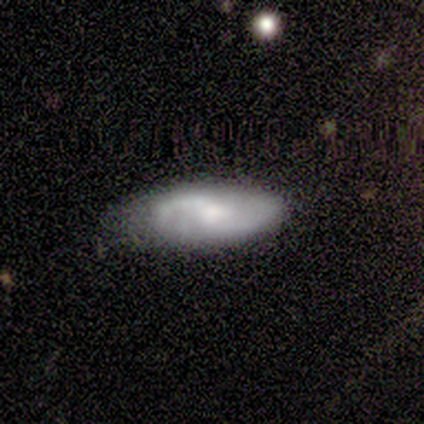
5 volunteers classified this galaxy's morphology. smooth_or_featured: featured or disk (p=0.80) [alt: smooth p=0.20]
disk_edge_on: no (p=1.00)
bar: weak (p=1.00)
has_spiral_arms: yes (p=0.75) [alt: no p=0.25]
spiral_winding: loose (p=0.67) [alt: medium p=0.33]
spiral_arm_count: 2 (p=1.00)
bulge_size: moderate (p=1.00)
merging: minor disturbance (p=0.80) [alt: none p=0.20]